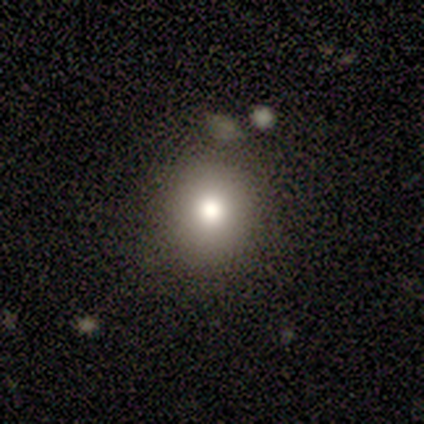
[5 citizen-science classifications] Q: Smooth or featured?
A: smooth (100%)
Q: How rounded?
A: round (80%); runner-up: in between (20%)
Q: Merging?
A: none (100%)